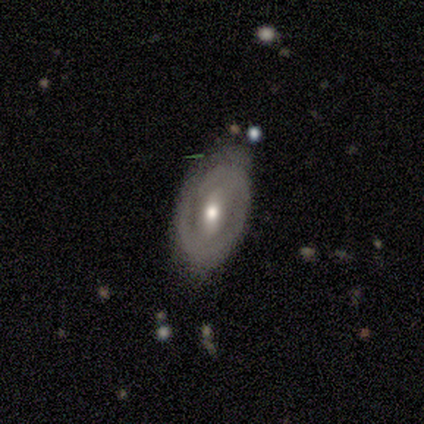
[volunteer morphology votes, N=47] Smooth or featured: featured or disk — 72% (smooth — 19%)
Edge-on disk: no — 97% (yes — 3%)
Bar: weak — 42% (no — 30%)
Spiral arms: yes — 70% (no — 30%)
Spiral winding: tight — 70% (medium — 26%)
Spiral arm count: 2 — 57% (1 — 22%)
Bulge size: moderate — 70% (small — 27%)
Merging: none — 53% (minor disturbance — 37%)